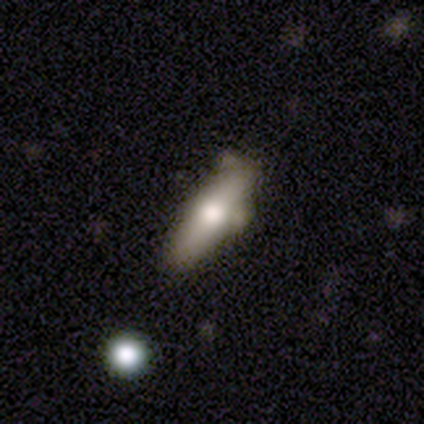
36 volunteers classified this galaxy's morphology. This appears to be a smooth galaxy with no disk features (44%, tied with featured or disk) that is cigar-shaped (56%). Merging: none (44%).